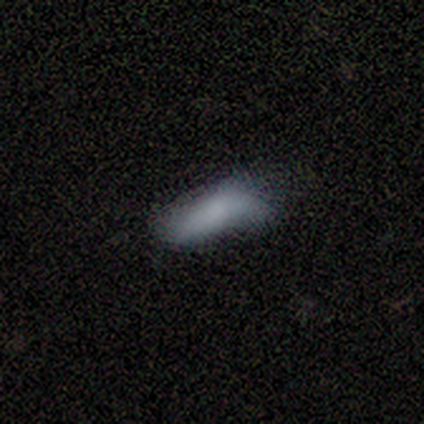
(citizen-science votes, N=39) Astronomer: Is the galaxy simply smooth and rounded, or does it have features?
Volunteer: smooth — 77%.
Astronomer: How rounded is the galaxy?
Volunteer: in between — 53% (runner-up: cigar-shaped, 47%).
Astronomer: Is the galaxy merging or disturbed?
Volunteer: none — 39% (runner-up: minor disturbance, 36%).